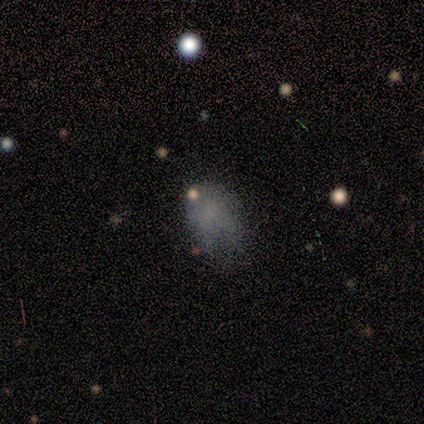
Overall: smooth (65%). How rounded: in between (71%). Merging: none (58%; minor disturbance 19%).